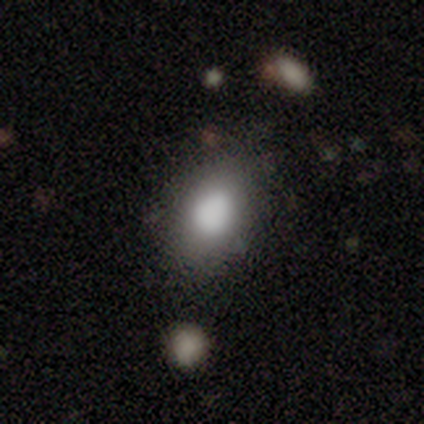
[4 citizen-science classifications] Smooth or featured? smooth (100%)
How rounded? round (50%, tied with in between)
Merging? none (75%)